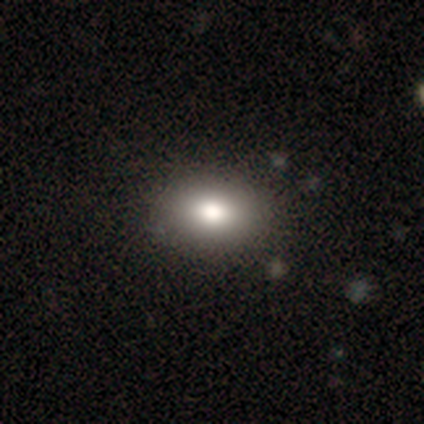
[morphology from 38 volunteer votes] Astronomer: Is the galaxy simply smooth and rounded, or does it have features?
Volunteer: smooth — 76%.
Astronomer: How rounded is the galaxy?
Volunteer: in between — 79%.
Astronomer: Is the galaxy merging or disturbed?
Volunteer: none — 90%.